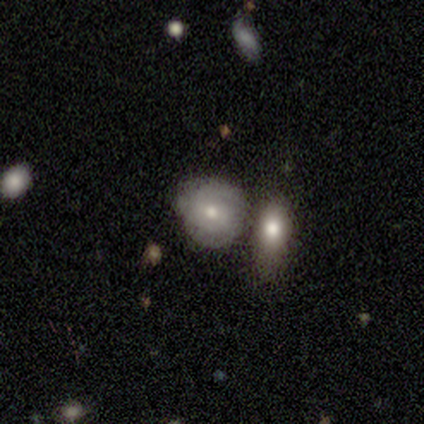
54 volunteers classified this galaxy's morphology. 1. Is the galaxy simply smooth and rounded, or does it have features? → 61% smooth, 30% featured or disk, 9% star or artifact.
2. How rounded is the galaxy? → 85% round, 12% in between, 3% cigar-shaped.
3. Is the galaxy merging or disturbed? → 57% none, 22% merger, 18% minor disturbance, 2% major disturbance.